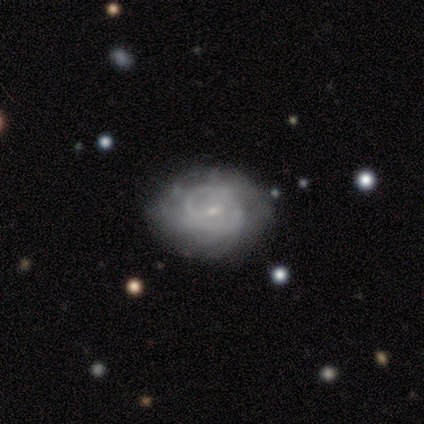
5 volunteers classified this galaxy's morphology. This appears to be a featured or disk galaxy (100%) with a weak bar (60%), tight (75%) spiral arms (80%) and a small central bulge (100%). Merging: none (40%, tied with minor disturbance).